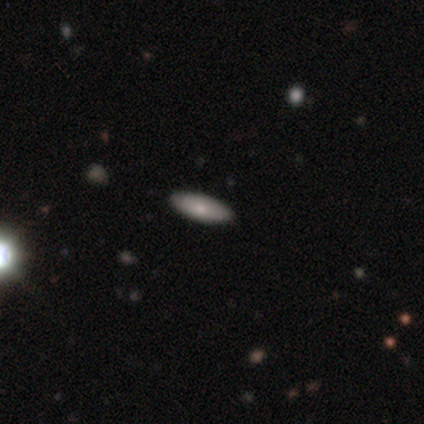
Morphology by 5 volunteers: This appears to be a smooth galaxy with no disk features (100%) that is in between round and cigar-shaped (60%). Merging: none (100%).